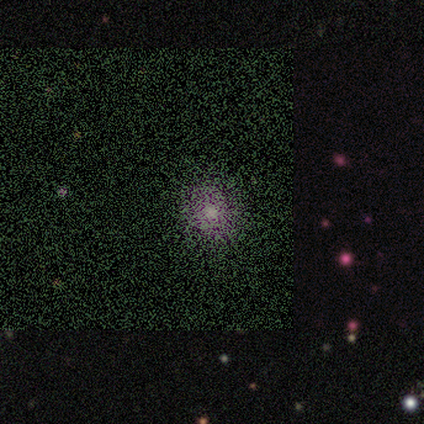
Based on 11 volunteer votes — Morphology: type=star or artifact (45%).